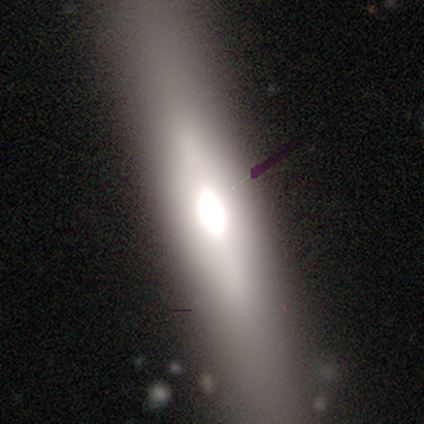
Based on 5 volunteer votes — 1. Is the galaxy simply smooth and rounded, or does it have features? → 60% featured or disk, 20% smooth, 20% star or artifact.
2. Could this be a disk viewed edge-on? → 100% yes, 0% no.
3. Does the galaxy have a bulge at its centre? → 67% rounded, 33% boxy, 0% none.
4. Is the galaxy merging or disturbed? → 75% none, 25% minor disturbance, 0% major disturbance, 0% merger.